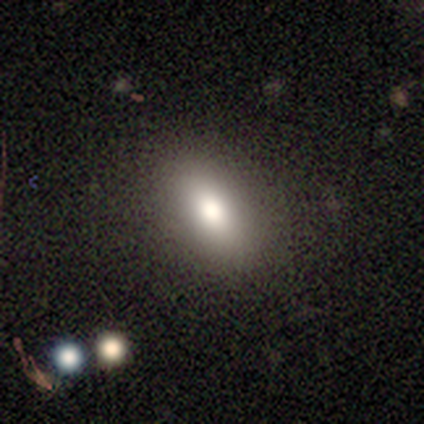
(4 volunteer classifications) Smooth or featured? 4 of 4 (100%) said smooth. How rounded? 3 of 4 (75%) said in between. Merging? 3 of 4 (75%) said none.